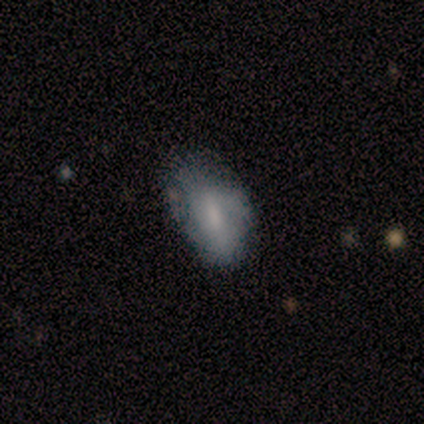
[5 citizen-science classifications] Smooth or featured? 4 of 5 (80%) said smooth. How rounded? 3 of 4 (75%) said in between. Merging? 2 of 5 (40%, tied with minor disturbance) said none.